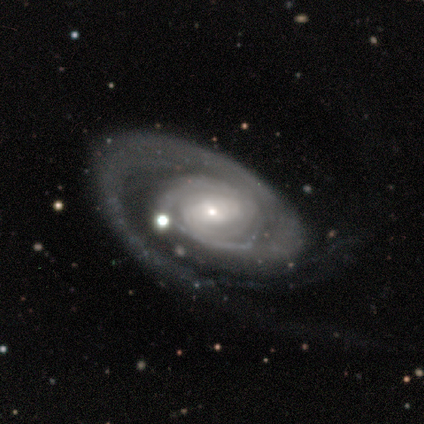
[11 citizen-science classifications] smooth-or-featured: featured or disk: 100% | smooth: 0% | star or artifact: 0%
  disk-edge-on: no: 100% | yes: 0%
    bar: no: 45% | weak: 36% | strong: 18%
    has-spiral-arms: yes: 100% | no: 0%
      spiral-winding: tight: 64% | medium: 27% | loose: 9%
      spiral-arm-count: 1: 82% | 2: 18% | 3: 0% | 4: 0% | more than 4: 0% | can't tell: 0%
    bulge-size: small: 82% | moderate: 18% | dominant: 0% | large: 0% | none: 0%
  merging: none: 73% | minor disturbance: 9% | major disturbance: 9% | merger: 9%